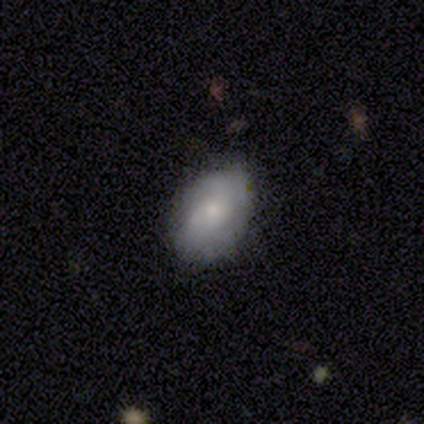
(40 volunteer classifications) A smooth galaxy with no disk features (65%) that is in between round and cigar-shaped (88%). Merging: none (76%).